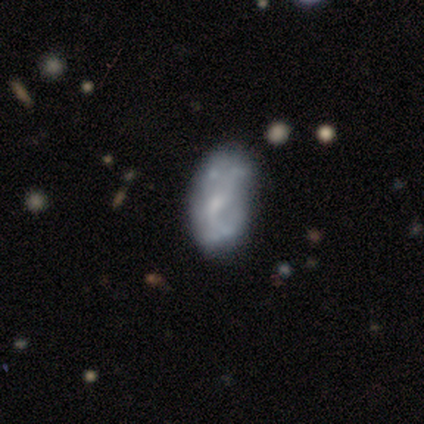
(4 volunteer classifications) Morphology: type=featured or disk (50%); edge-on=no (100%); bar=no (100%); spiral arms=no (100%); bulge=small (50%, tied with none); merging=minor disturbance (67%).